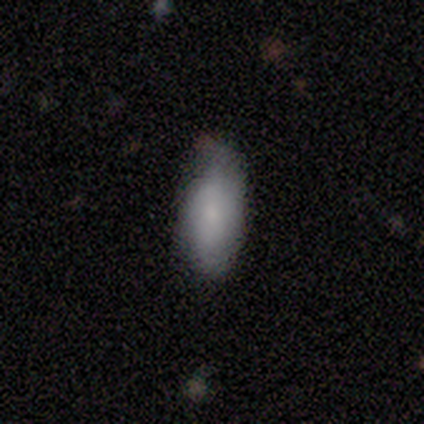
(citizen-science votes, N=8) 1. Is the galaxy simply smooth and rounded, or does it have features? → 75% smooth, 12% featured or disk, 12% star or artifact.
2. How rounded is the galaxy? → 100% in between, 0% round, 0% cigar-shaped.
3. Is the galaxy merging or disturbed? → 43% none (tied), 43% minor disturbance (tied), 14% major disturbance, 0% merger.